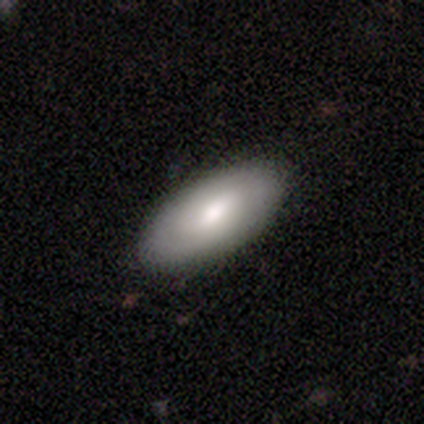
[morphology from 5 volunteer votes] Smooth or featured: smooth — 60% (featured or disk — 40%)
How rounded: in between — 100%
Merging: none — 80% (minor disturbance — 20%)